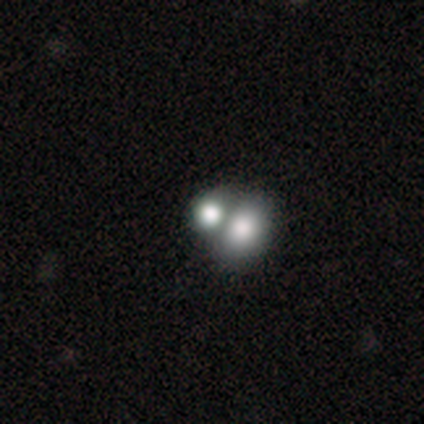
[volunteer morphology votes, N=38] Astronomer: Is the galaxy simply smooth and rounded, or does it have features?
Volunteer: smooth — 74%.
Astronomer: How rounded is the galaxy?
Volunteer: round — 64%.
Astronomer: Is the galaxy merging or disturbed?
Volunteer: merger — 61%.